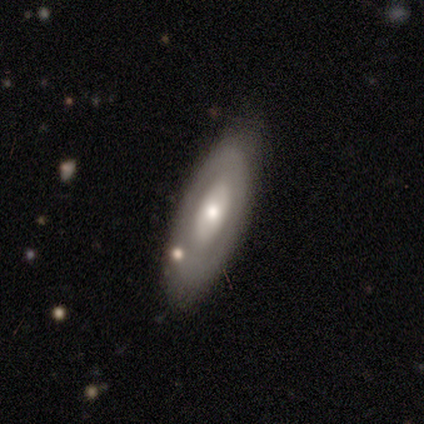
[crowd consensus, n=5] Smooth or featured? 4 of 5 (80%) said featured or disk. Edge-on disk? 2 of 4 (50%, tied with no) said yes. Edge-on bulge? 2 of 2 (100%) said rounded. Merging? 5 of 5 (100%) said none.